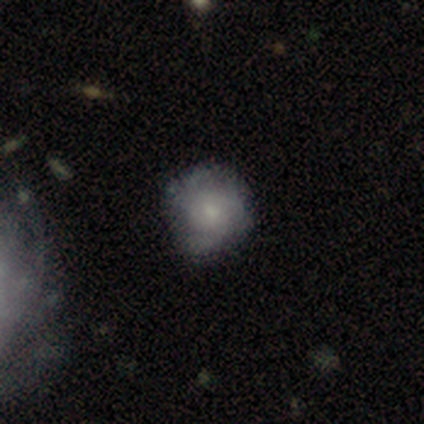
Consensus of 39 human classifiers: Smooth or featured? smooth (51%)
How rounded? round (85%)
Merging? none (62%)